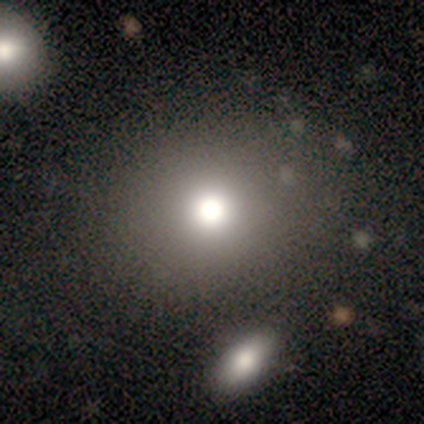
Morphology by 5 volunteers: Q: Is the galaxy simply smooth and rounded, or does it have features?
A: smooth — 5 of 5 (100%).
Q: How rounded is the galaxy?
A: round — 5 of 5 (100%).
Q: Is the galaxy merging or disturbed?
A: none — 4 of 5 (80%).